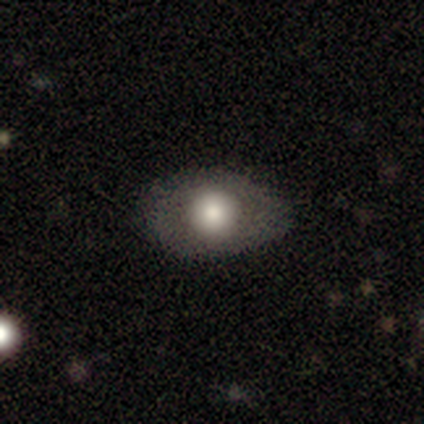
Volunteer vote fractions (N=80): This appears to be a smooth galaxy with no disk features (72%) that is in between round and cigar-shaped (79%). Merging: none (75%).